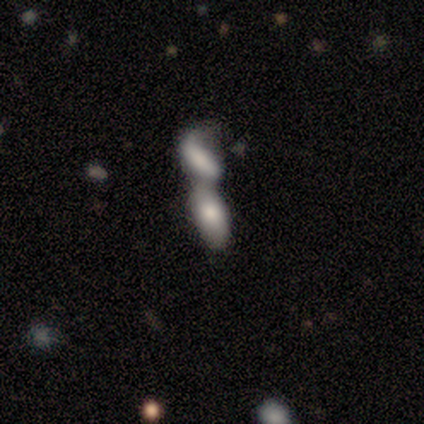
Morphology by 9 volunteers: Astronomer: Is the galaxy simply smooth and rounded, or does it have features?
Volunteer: smooth — 56% (runner-up: featured or disk, 44%).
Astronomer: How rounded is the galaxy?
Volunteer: in between — 100%.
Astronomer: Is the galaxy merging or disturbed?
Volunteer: merger — 100%.